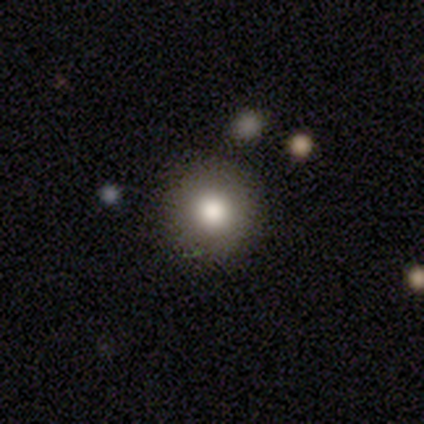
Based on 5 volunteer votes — smooth_or_featured: smooth (p=0.80) [alt: featured or disk p=0.20]
how_rounded: round (p=1.00)
merging: none (p=0.80) [alt: merger p=0.20]